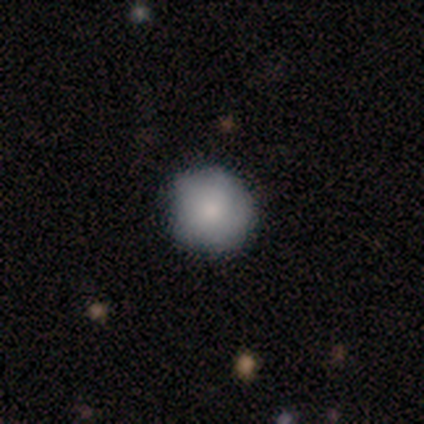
Smooth or featured?
  - smooth: 100% *
  - featured or disk: 0%
  - star or artifact: 0%
How rounded?
  - round: 100% *
  - in between: 0%
  - cigar-shaped: 0%
Merging?
  - none: 67% *
  - minor disturbance: 33%
  - major disturbance: 0%
  - merger: 0%